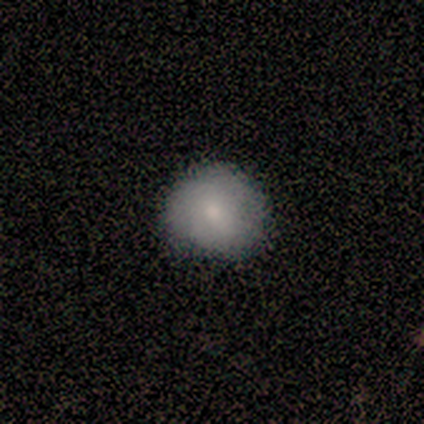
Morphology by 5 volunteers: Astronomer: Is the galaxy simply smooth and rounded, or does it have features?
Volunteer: smooth — 80%.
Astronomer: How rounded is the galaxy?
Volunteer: round — 50%, tied with in between at 50%.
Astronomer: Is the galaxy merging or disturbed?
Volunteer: none — 80%.